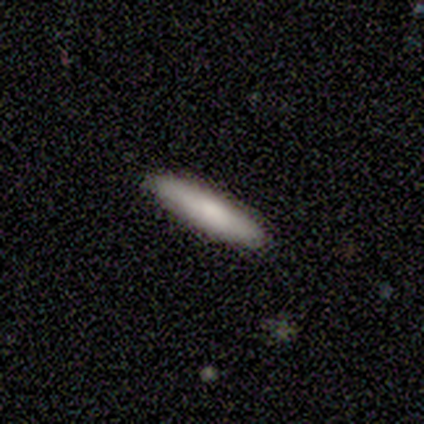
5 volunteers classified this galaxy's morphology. This appears to be a featured or disk galaxy (80%) viewed edge-on (75%) with a rounded central bulge (100%). Merging: none (80%).